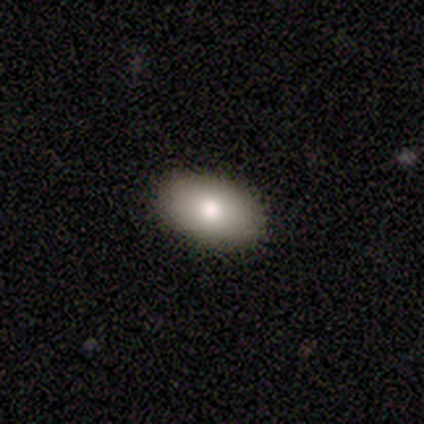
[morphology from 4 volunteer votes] smooth-or-featured: smooth: 100% | featured or disk: 0% | star or artifact: 0%
  how-rounded: in between: 75% | round: 25% | cigar-shaped: 0%
  merging: none: 50% | minor disturbance: 25% | merger: 25% | major disturbance: 0%